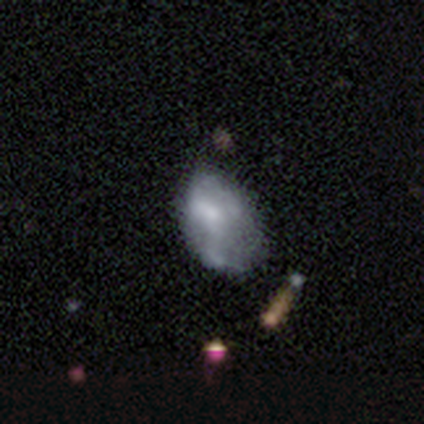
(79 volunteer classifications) This appears to be a featured or disk galaxy (49%) with no bar (82%), no spiral arms (87%) and no central bulge (37%). Merging: minor disturbance (22%).